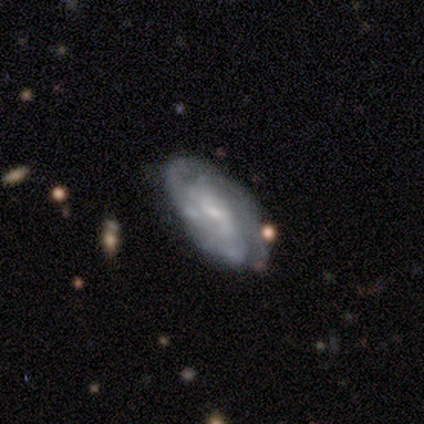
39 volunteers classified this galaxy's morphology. Q: Smooth or featured?
A: featured or disk (77%); runner-up: smooth (15%)
Q: Edge-on disk?
A: no (93%); runner-up: yes (7%)
Q: Bar?
A: weak (46%); runner-up: no (43%)
Q: Spiral arms?
A: yes (93%); runner-up: no (7%)
Q: Spiral winding?
A: tight (46%); runner-up: medium (38%)
Q: Spiral arm count?
A: can't tell (38%); runner-up: 2 (19%)
Q: Bulge size?
A: small (75%); runner-up: none (14%)
Q: Merging?
A: none (64%); runner-up: minor disturbance (31%)